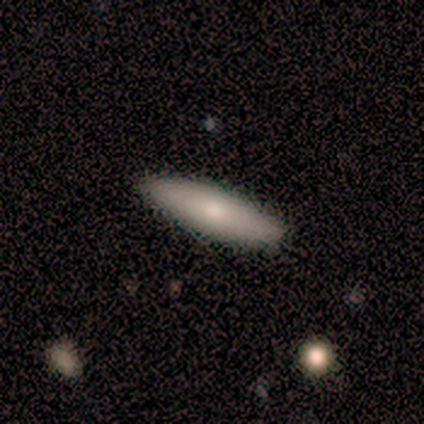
Smooth or featured: smooth — 50% (tied with featured or disk — 50%)
How rounded: in between — 50% (tied with cigar-shaped — 50%)
Merging: none — 50% (tied with minor disturbance — 50%)